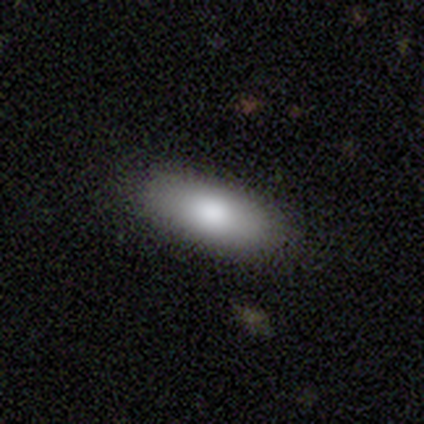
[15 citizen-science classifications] smooth 80%, featured or disk 20%, star or artifact 0%. Down the decision tree: how rounded — in between (83%); merging — none (93%).